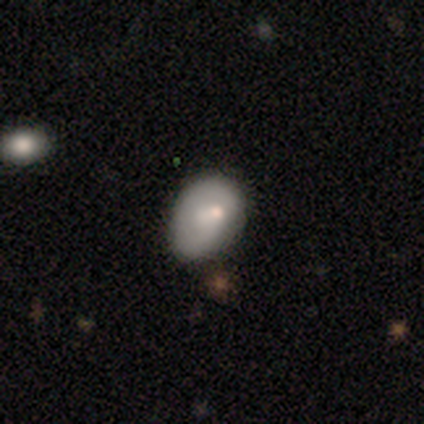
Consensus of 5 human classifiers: smooth-or-featured: smooth: 80% | star or artifact: 20% | featured or disk: 0%
  how-rounded: round: 50% (tied) | in between: 50% (tied) | cigar-shaped: 0%
  merging: minor disturbance: 100% | none: 0% | major disturbance: 0% | merger: 0%